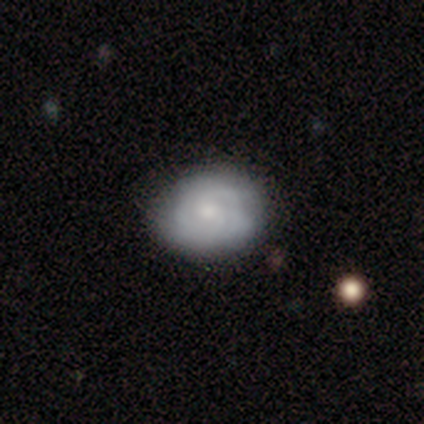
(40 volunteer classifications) smooth-or-featured: featured or disk: 52% | smooth: 42% | star or artifact: 5%
  disk-edge-on: no: 95% | yes: 5%
    bar: no: 75% | weak: 25% | strong: 0%
    has-spiral-arms: yes: 85% | no: 15%
      spiral-winding: medium: 41% | tight: 35% | loose: 24%
      spiral-arm-count: can't tell: 41% | 2: 29% | 3: 29% | 1: 0% | 4: 0% | more than 4: 0%
    bulge-size: small: 45% | moderate: 40% | large: 10% | none: 5% | dominant: 0%
  merging: none: 87% | minor disturbance: 11% | major disturbance: 3% | merger: 0%